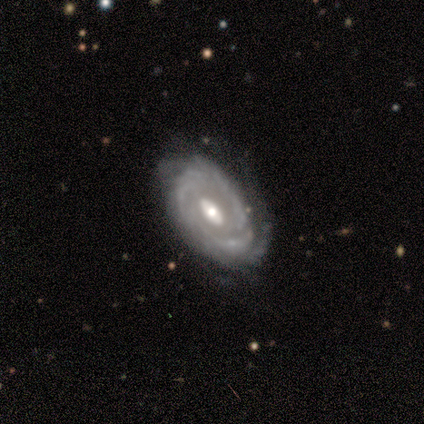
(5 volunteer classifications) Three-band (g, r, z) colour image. It shows a featured or disk galaxy (80%) with no bar (75%), 2 (50%) tight (75%) spiral arms (100%) and a moderate central bulge (100%). Merging: none (60%).